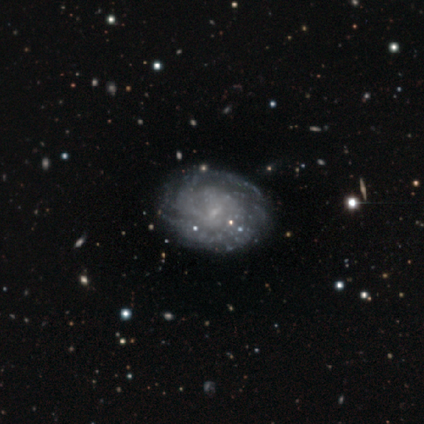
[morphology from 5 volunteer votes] Smooth or featured?
  - featured or disk: 60% *
  - smooth: 20%
  - star or artifact: 20%
Edge-on disk?
  - no: 100% *
  - yes: 0%
Bar?
  - weak: 67% *
  - no: 33%
  - strong: 0%
Spiral arms?
  - yes: 100% *
  - no: 0%
Spiral winding?
  - medium: 67% *
  - tight: 33%
  - loose: 0%
Spiral arm count?
  - 2: 67% *
  - can't tell: 33%
  - 1: 0%
  - 3: 0%
  - 4: 0%
  - more than 4: 0%
Bulge size?
  - none: 67% *
  - small: 33%
  - dominant: 0%
  - large: 0%
  - moderate: 0%
Merging?
  - none: 75% *
  - major disturbance: 25%
  - minor disturbance: 0%
  - merger: 0%